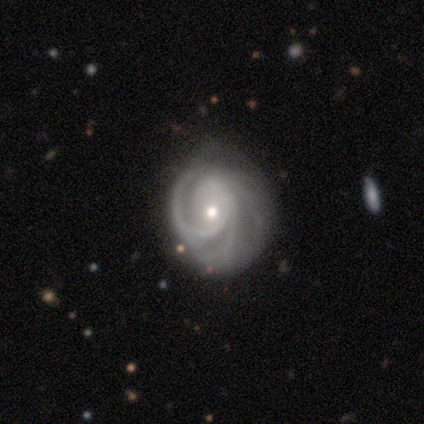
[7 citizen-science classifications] smooth-or-featured: featured or disk: 100% | smooth: 0% | star or artifact: 0%
  disk-edge-on: no: 100% | yes: 0%
    bar: no: 86% | strong: 14% | weak: 0%
    has-spiral-arms: yes: 100% | no: 0%
      spiral-winding: tight: 86% | medium: 14% | loose: 0%
      spiral-arm-count: 3: 43% | 1: 29% | can't tell: 29% | 2: 0% | 4: 0% | more than 4: 0%
    bulge-size: moderate: 71% | small: 29% | dominant: 0% | large: 0% | none: 0%
  merging: none: 86% | major disturbance: 14% | minor disturbance: 0% | merger: 0%